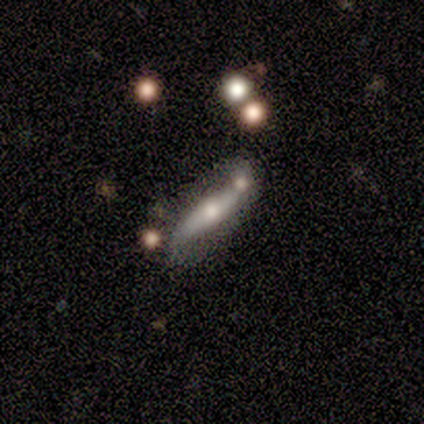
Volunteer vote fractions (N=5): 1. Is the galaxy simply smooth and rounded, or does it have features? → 60% featured or disk, 40% star or artifact, 0% smooth.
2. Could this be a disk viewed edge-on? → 67% yes, 33% no.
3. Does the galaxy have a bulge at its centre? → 100% rounded, 0% boxy, 0% none.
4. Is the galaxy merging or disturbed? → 100% minor disturbance, 0% none, 0% major disturbance, 0% merger.